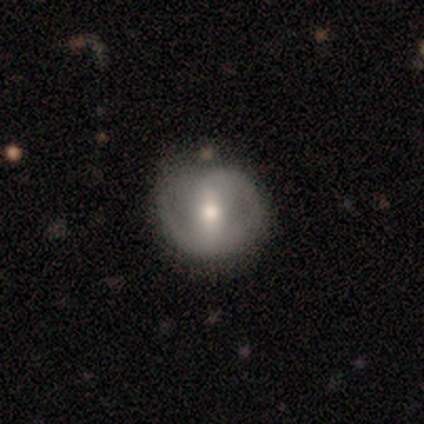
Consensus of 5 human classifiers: Smooth or featured? featured or disk (80%)
Edge-on disk? no (100%)
Bar? weak (75%)
Spiral arms? yes (50%, tied with no)
Spiral winding? tight (50%, tied with loose)
Spiral arm count? 2 (100%)
Bulge size? small (75%)
Merging? none (40%, tied with minor disturbance)